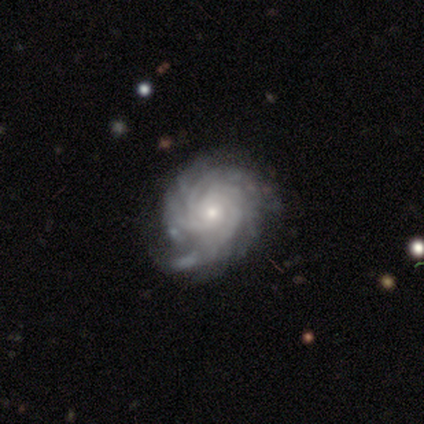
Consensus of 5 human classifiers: Volunteers were most divided on "merging" (2-way tie): none: 40%, minor disturbance: 40%, major disturbance: 20%, merger: 0%. Remaining: smooth or featured — featured or disk (100%); edge-on disk — no (100%); spiral arms — yes (100%); bulge size — small (100%); bar — no (80%); spiral winding — tight (80%); spiral arm count — more than 4 (40%).